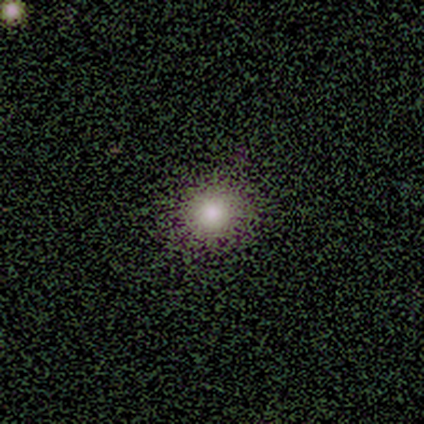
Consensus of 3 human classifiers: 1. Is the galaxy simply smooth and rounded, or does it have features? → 67% smooth, 33% star or artifact, 0% featured or disk.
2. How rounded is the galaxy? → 100% round, 0% in between, 0% cigar-shaped.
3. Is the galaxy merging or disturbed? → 50% none (tied), 50% minor disturbance (tied), 0% major disturbance, 0% merger.